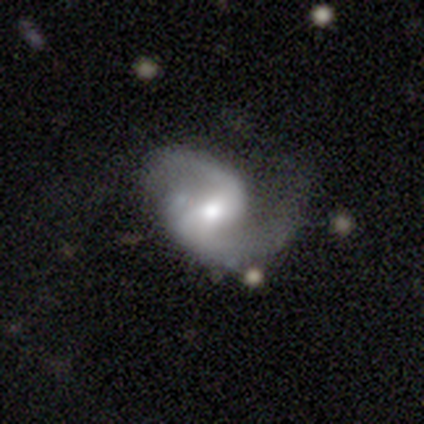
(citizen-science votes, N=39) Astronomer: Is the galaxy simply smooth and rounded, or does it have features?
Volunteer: featured or disk — 85%.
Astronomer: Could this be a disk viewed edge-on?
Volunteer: no — 94%.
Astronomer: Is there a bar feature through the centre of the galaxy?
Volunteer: weak — 61%.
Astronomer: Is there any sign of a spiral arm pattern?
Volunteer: yes — 100%.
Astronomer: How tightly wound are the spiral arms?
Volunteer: medium — 48% (runner-up: loose, 35%).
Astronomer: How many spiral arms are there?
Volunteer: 2 — 100%.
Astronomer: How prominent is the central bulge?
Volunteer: moderate — 65%.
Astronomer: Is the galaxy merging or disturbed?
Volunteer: none — 66%.